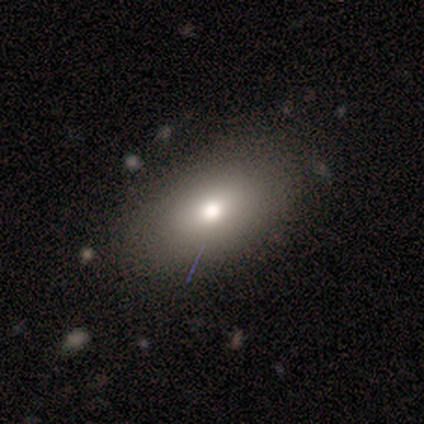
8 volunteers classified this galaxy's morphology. A smooth galaxy with no disk features (62%) that is in between round and cigar-shaped (100%). Merging: none (100%).